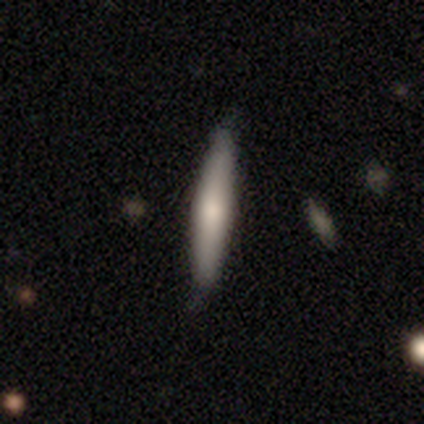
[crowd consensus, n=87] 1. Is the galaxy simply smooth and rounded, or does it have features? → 70% smooth, 24% featured or disk, 6% star or artifact.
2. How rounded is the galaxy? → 97% cigar-shaped, 3% in between, 0% round.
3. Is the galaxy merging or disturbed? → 78% none, 22% minor disturbance, 0% major disturbance, 0% merger.